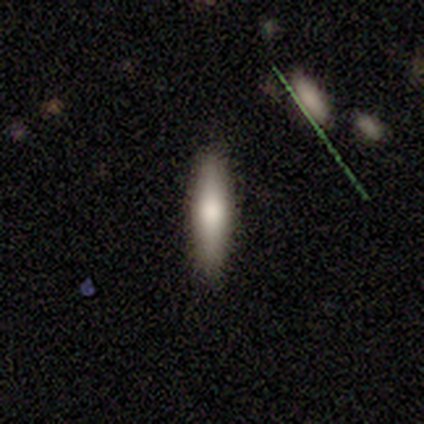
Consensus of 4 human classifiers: Smooth or featured? smooth (50%)
How rounded? cigar-shaped (100%)
Merging? none (100%)